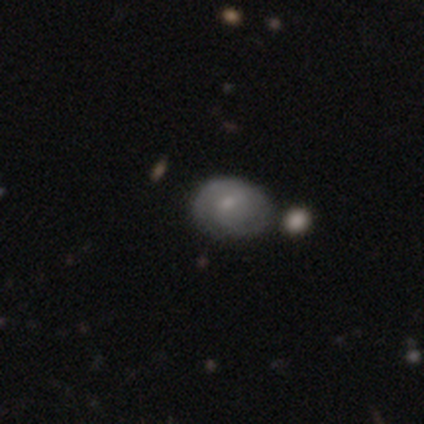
This appears to be a featured or disk galaxy (60%) with a weak bar (67%), 2 (33%, tied with 3 and more than 4) medium (67%) spiral arms (100%) and a small central bulge (67%). Merging: minor disturbance (60%).